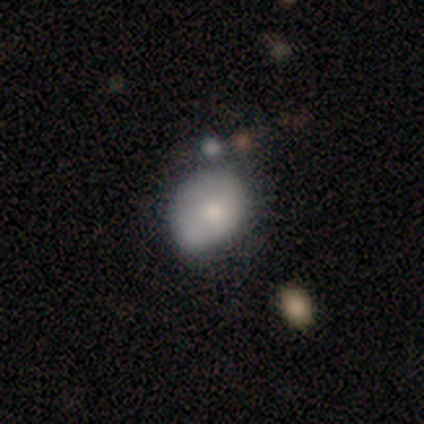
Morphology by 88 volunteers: Smooth or featured? smooth (69%)
How rounded? in between (54%)
Merging? minor disturbance (46%)